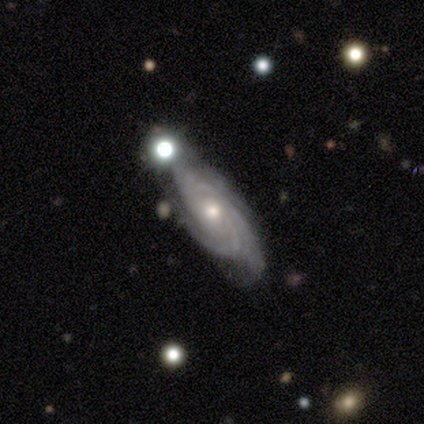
Smooth or featured: featured or disk — 80% (smooth — 20%)
Edge-on disk: no — 100%
Bar: no — 100%
Spiral arms: yes — 100%
Spiral winding: tight — 100%
Spiral arm count: can't tell — 50% (3 — 25%)
Bulge size: moderate — 75% (small — 25%)
Merging: none — 100%